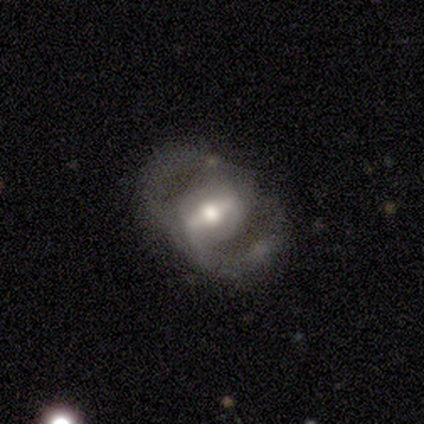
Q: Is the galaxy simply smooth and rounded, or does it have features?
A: featured or disk — 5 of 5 (100%).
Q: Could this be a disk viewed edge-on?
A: no — 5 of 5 (100%).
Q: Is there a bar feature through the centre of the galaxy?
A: strong — 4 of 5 (80%).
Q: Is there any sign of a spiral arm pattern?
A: yes — 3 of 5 (60%).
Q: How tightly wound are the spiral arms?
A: tight — 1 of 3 (33%, tied with medium and loose).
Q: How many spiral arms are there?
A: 2 — 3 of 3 (100%).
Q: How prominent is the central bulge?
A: moderate — 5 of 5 (100%).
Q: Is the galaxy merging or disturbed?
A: none — 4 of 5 (80%).